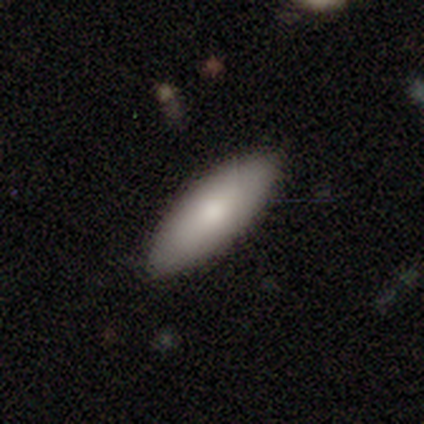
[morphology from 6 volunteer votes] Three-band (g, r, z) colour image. It shows a smooth galaxy with no disk features (83%) that is in between round and cigar-shaped (80%). Merging: none (83%).